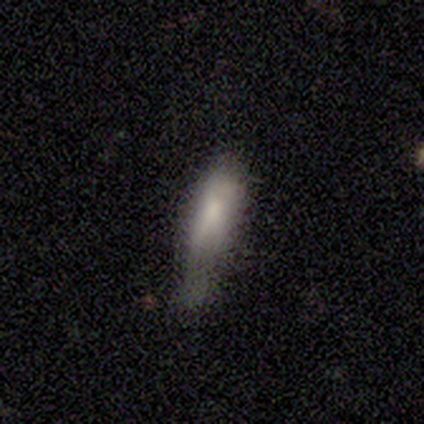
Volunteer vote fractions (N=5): A smooth galaxy with no disk features (80%) that is in between round and cigar-shaped (100%). Merging: minor disturbance (60%).